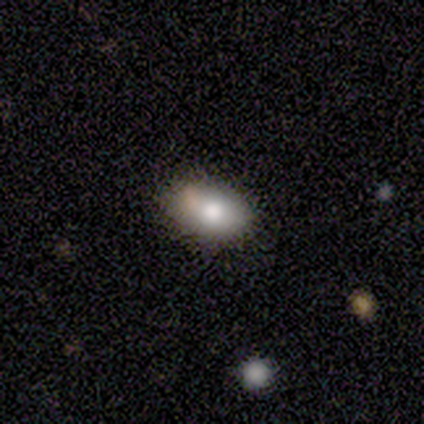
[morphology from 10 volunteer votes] A smooth galaxy with no disk features (60%) that is in between round and cigar-shaped (100%).

Vote fractions:
- Smooth or featured? smooth: 60% / featured or disk: 30% / star or artifact: 10%
- How rounded? in between: 100% / round: 0% / cigar-shaped: 0%
- Merging? none: 78% / minor disturbance: 22% / major disturbance: 0% / merger: 0%